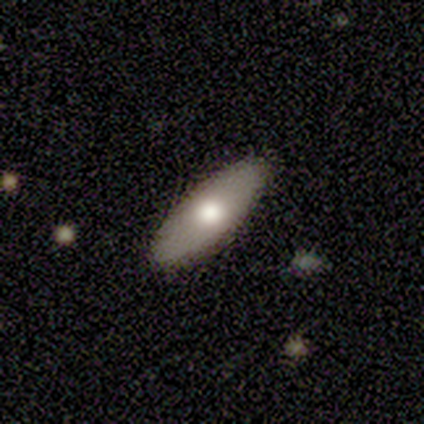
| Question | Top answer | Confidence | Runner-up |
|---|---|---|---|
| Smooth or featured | smooth | 75% | featured or disk (25%) |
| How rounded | in between | 67% | cigar-shaped (33%) |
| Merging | none | 88% | major disturbance (12%) |